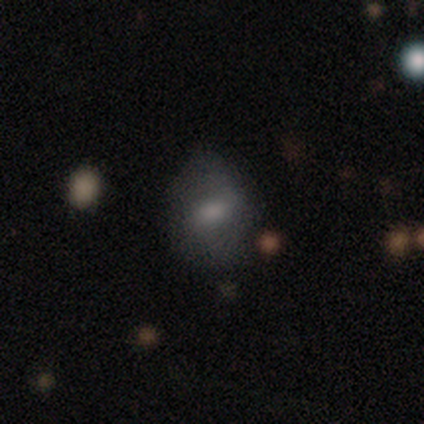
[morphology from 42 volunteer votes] Smooth or featured? 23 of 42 (55%) said smooth. How rounded? 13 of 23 (57%) said in between. Merging? 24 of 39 (62%) said none.